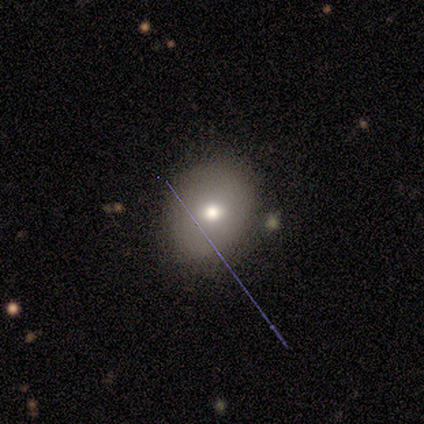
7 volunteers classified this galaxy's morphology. Overall: smooth (43%; featured or disk 29%). How rounded: round (100%). Merging: none (80%).